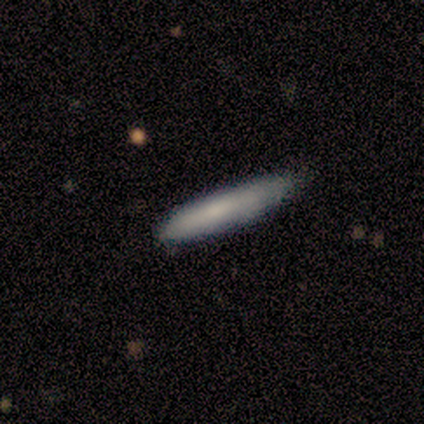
This is clearly a smooth galaxy (100%). How rounded: clearly cigar-shaped (86%). Merging: clearly none (86%).